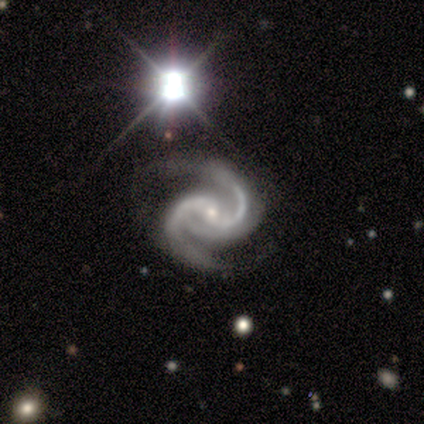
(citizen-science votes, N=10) Morphology: type=featured or disk (90%); edge-on=no (100%); bar=no (78%); spiral arms=yes (100%); winding=medium (89%); arm count=2 (78%); bulge=small (67%); merging=none (67%).